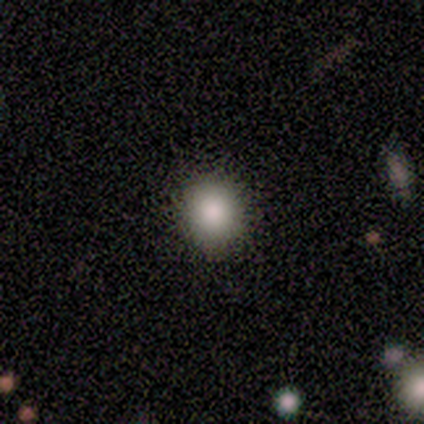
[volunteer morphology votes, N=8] smooth-or-featured: smooth: 75% | featured or disk: 12% | star or artifact: 12%
  how-rounded: round: 67% | in between: 33% | cigar-shaped: 0%
  merging: none: 100% | minor disturbance: 0% | major disturbance: 0% | merger: 0%